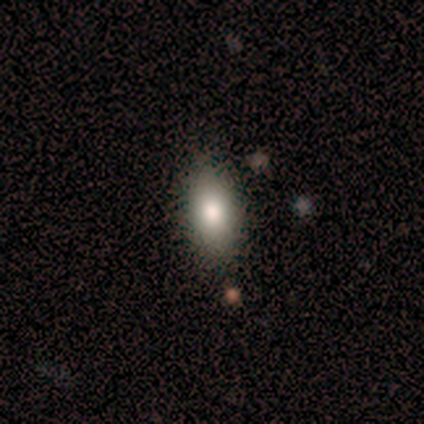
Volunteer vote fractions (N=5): Q: Smooth or featured?
A: smooth (100%)
Q: How rounded?
A: in between (100%)
Q: Merging?
A: none (80%); runner-up: minor disturbance (20%)